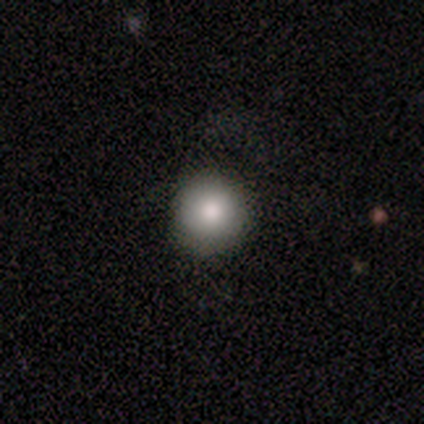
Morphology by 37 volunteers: Smooth or featured? 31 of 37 (84%) said smooth. How rounded? 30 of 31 (97%) said round. Merging? 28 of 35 (80%) said none.